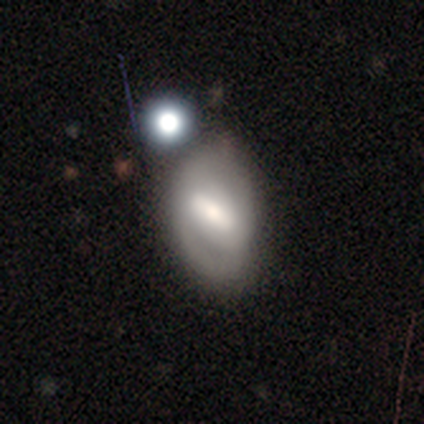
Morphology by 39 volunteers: Smooth or featured? 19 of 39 (49%) said featured or disk. Edge-on disk? 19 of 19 (100%) said no. Bar? 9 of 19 (47%) said strong. Spiral arms? 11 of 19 (58%) said no. Bulge size? 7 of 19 (37%) said moderate. Merging? 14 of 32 (44%) said minor disturbance.